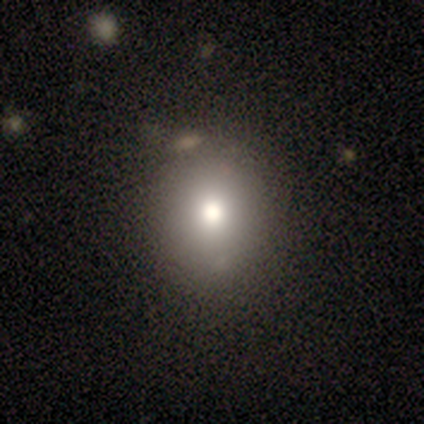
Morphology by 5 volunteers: Smooth or featured?
  - smooth: 60% *
  - featured or disk: 20%
  - star or artifact: 20%
How rounded?
  - round: 100% *
  - in between: 0%
  - cigar-shaped: 0%
Merging?
  - none: 100% *
  - minor disturbance: 0%
  - major disturbance: 0%
  - merger: 0%